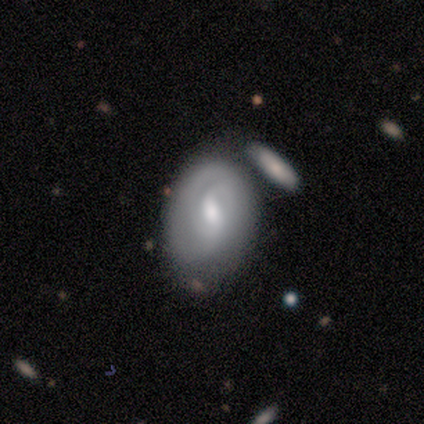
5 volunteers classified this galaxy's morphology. Overall: featured or disk (60%; smooth 40%). Edge-on disk: no (100%). Bar: strong (33%, tied with weak and no). Spiral arms: yes (67%; no 33%). Spiral arm count: 2 (50%, tied with can't tell). Spiral winding: tight (50%, tied with loose). Bulge size: moderate (67%; small 33%). Merging: none (60%; minor disturbance 20%).